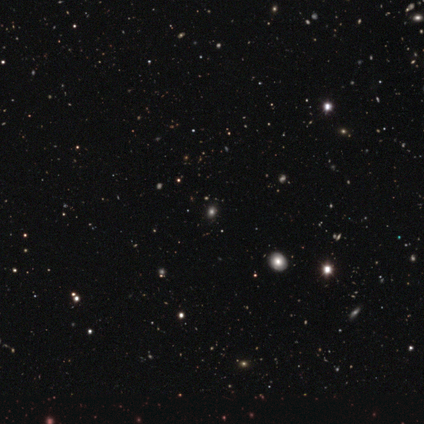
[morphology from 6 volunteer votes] smooth-or-featured: star or artifact: 100% | smooth: 0% | featured or disk: 0%